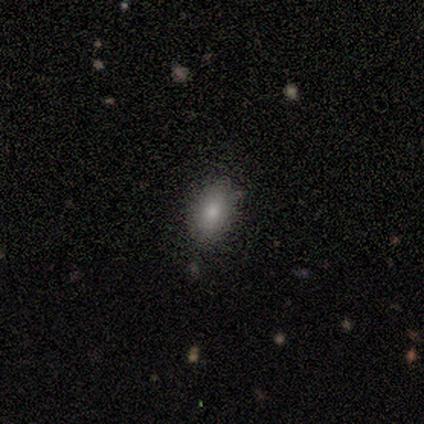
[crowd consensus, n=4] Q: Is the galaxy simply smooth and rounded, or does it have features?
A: smooth — 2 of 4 (50%, tied with star or artifact).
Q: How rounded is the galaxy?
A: in between — 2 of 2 (100%).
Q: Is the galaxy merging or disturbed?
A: none — 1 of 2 (50%, tied with major disturbance).